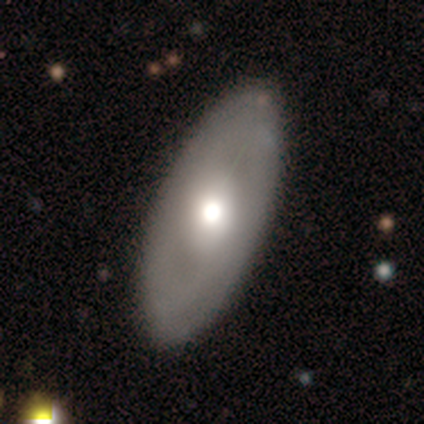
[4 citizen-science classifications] Volunteers were most divided on "merging": none: 75%, minor disturbance: 25%, major disturbance: 0%, merger: 0%. More confident: smooth or featured — smooth (100%); how rounded — in between (100%).